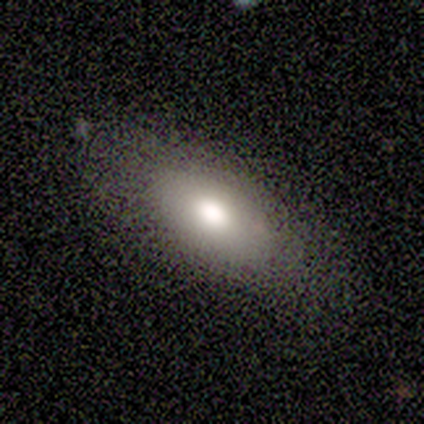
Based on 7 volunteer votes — smooth_or_featured: smooth (p=0.71) [alt: featured or disk p=0.14]
how_rounded: in between (p=0.80) [alt: cigar-shaped p=0.20]
merging: none (p=0.83) [alt: minor disturbance p=0.17]